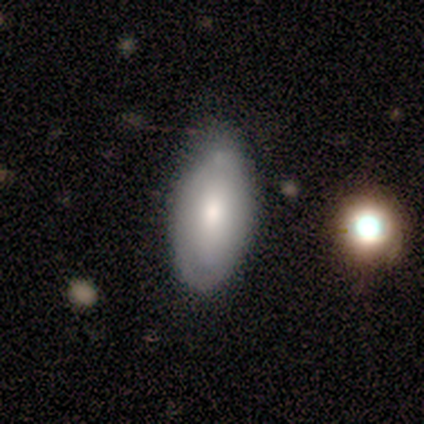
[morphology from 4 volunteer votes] Smooth or featured? 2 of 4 (50%, tied with featured or disk) said smooth. How rounded? 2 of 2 (100%) said in between. Merging? 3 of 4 (75%) said none.